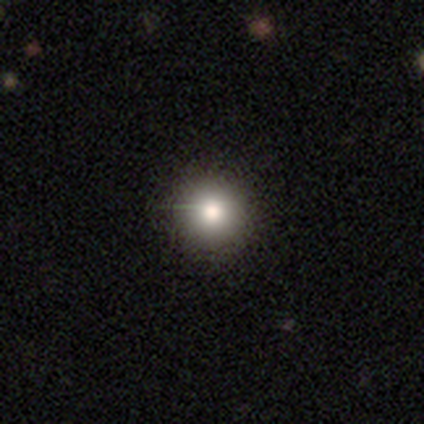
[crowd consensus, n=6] Smooth or featured? smooth (67%)
How rounded? round (100%)
Merging? none (80%)